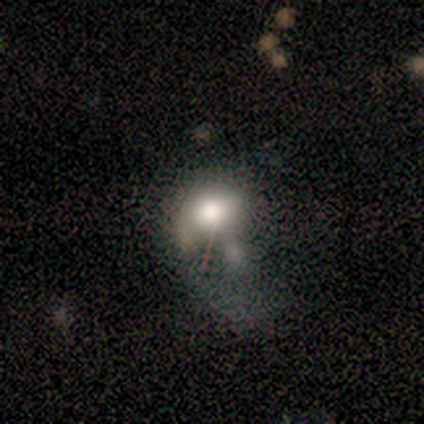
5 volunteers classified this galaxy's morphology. Volunteers were most divided on "smooth or featured": smooth: 60%, featured or disk: 40%, star or artifact: 0%. More confident: how rounded — in between (100%); merging — merger (60%).